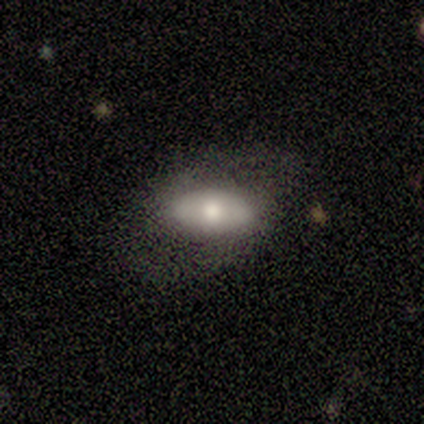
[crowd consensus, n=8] Overall: smooth (62%; featured or disk 38%). How rounded: in between (100%). Merging: none (75%).